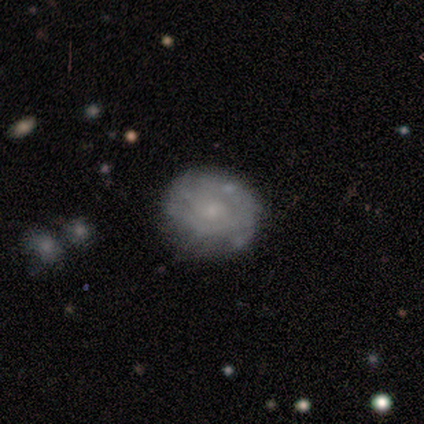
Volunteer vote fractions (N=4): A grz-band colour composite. It shows a smooth galaxy with no disk features (50%, tied with featured or disk) that is round (50%, tied with in between). Merging: minor disturbance (75%).